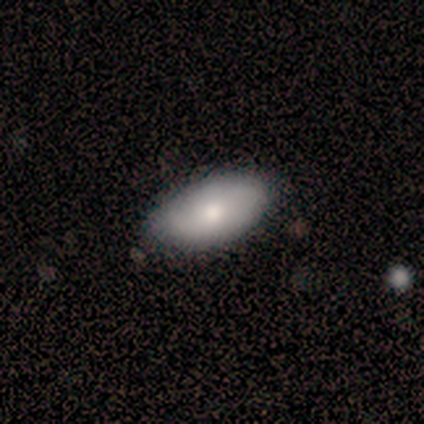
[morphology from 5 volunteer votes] A smooth galaxy with no disk features (60%) that is in between round and cigar-shaped (100%).

Vote fractions:
- Smooth or featured? smooth: 60% / featured or disk: 40% / star or artifact: 0%
- How rounded? in between: 100% / round: 0% / cigar-shaped: 0%
- Merging? none: 80% / minor disturbance: 20% / major disturbance: 0% / merger: 0%